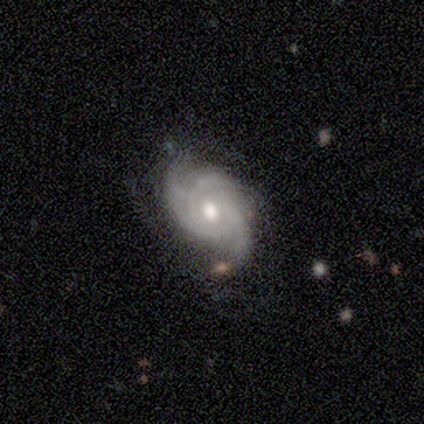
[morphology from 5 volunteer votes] smooth-or-featured: featured or disk: 100% | smooth: 0% | star or artifact: 0%
  disk-edge-on: no: 100% | yes: 0%
    bar: no: 80% | strong: 20% | weak: 0%
    has-spiral-arms: yes: 100% | no: 0%
      spiral-winding: tight: 60% | medium: 40% | loose: 0%
      spiral-arm-count: 3: 80% | 4: 20% | 1: 0% | 2: 0% | more than 4: 0% | can't tell: 0%
    bulge-size: moderate: 80% | large: 20% | dominant: 0% | small: 0% | none: 0%
  merging: none: 100% | minor disturbance: 0% | major disturbance: 0% | merger: 0%